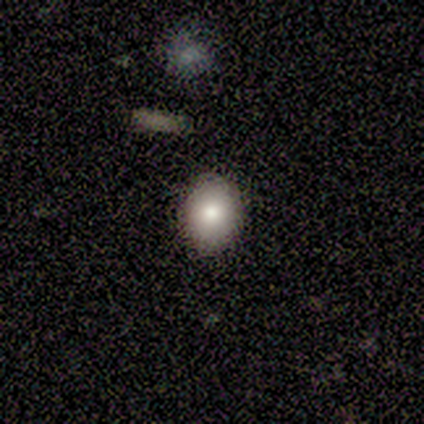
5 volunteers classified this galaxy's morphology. This appears to be a smooth galaxy with no disk features (60%) that is in between round and cigar-shaped (67%). Merging: none (100%).